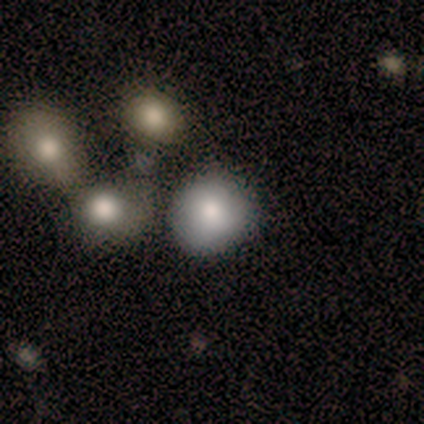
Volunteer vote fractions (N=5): Q: Smooth or featured?
A: smooth (100%)
Q: How rounded?
A: round (60%); runner-up: in between (40%)
Q: Merging?
A: none (80%); runner-up: major disturbance (20%)